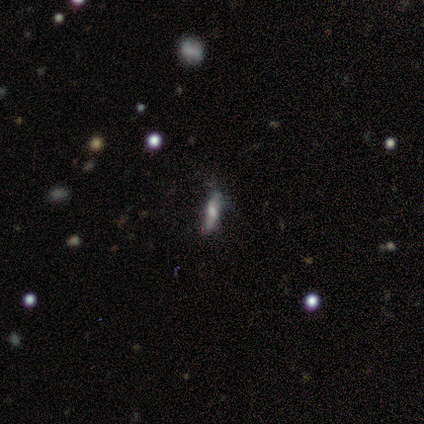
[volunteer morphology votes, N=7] Overall: smooth (43%; featured or disk 29%). How rounded: cigar-shaped (100%). Merging: none (80%).